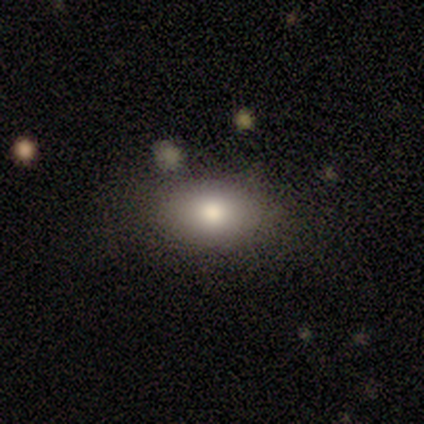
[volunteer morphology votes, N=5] Overall: smooth (80%). How rounded: in between (100%). Merging: none (100%).